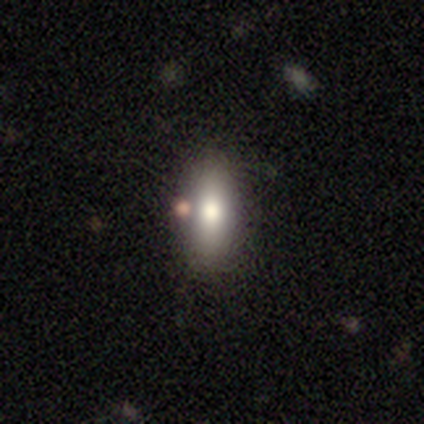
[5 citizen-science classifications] Smooth or featured? smooth (60%)
How rounded? cigar-shaped (67%)
Merging? minor disturbance (67%)